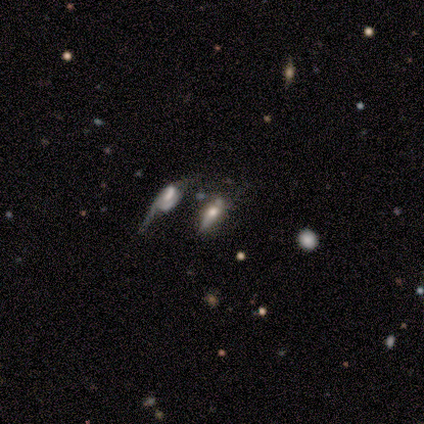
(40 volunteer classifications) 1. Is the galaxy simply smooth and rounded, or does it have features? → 45% featured or disk, 30% star or artifact, 25% smooth.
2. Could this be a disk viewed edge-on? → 61% no, 39% yes.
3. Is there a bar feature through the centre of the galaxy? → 64% no, 18% strong, 18% weak.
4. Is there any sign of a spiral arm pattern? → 82% no, 18% yes.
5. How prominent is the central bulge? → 36% moderate, 18% dominant, 18% small, 18% none, 9% large.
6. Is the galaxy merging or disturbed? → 32% major disturbance, 25% minor disturbance, 25% merger, 18% none.